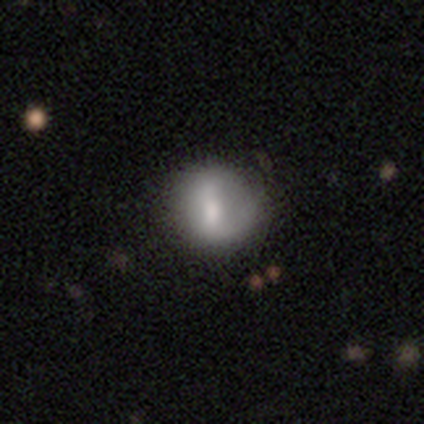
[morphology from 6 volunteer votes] This appears to be a smooth galaxy with no disk features (83%) that is round (80%). Merging: none (50%).